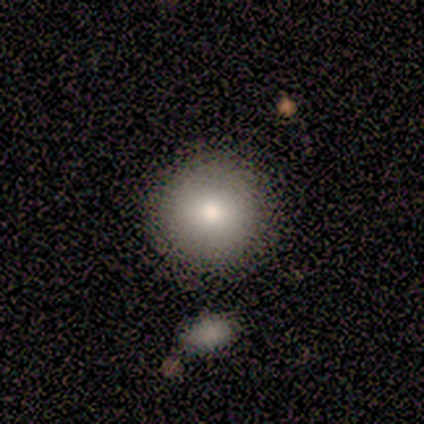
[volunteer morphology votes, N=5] Volunteers were most divided on "smooth or featured": smooth: 80%, featured or disk: 20%, star or artifact: 0%. More confident: how rounded — round (100%); merging — none (80%).